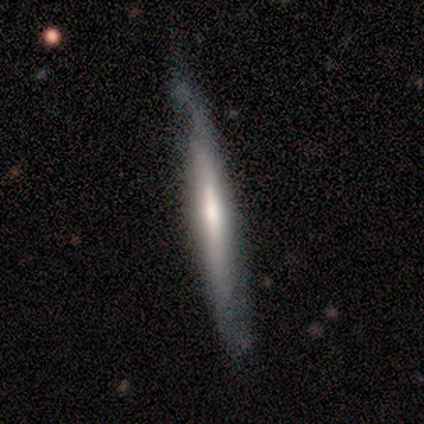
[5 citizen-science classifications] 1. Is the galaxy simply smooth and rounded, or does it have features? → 60% smooth, 40% featured or disk, 0% star or artifact.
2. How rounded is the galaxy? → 100% cigar-shaped, 0% round, 0% in between.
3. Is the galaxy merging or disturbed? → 60% none, 40% minor disturbance, 0% major disturbance, 0% merger.